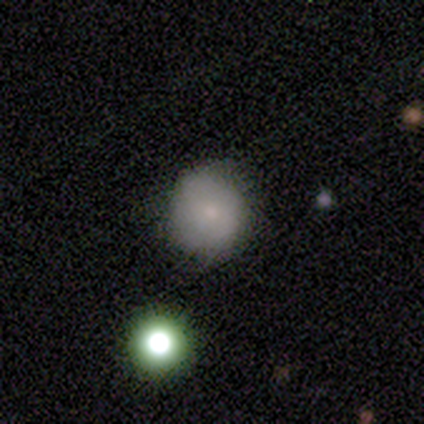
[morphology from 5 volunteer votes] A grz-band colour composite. It shows a smooth galaxy with no disk features (80%) that is round (75%). Merging: none (80%).